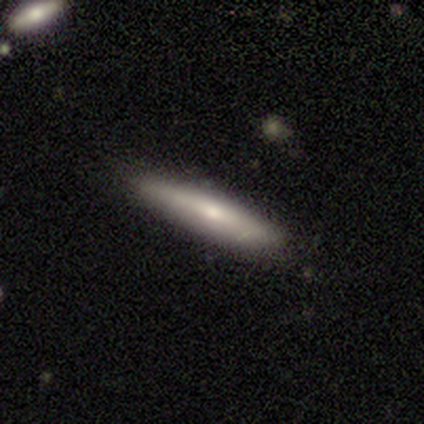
This appears to be a smooth galaxy with no disk features (50%, tied with featured or disk) that is cigar-shaped (100%). Merging: none (100%).